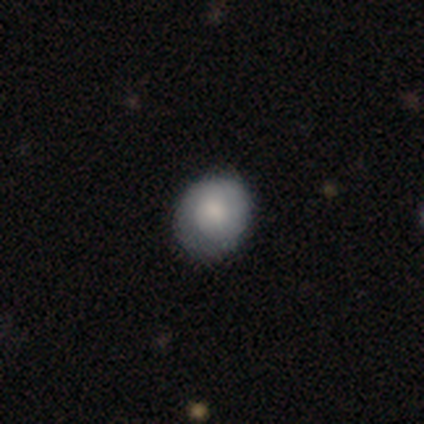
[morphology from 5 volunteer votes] smooth_or_featured: smooth (p=0.60) [alt: featured or disk p=0.20]
how_rounded: round (p=1.00)
merging: none (p=0.75) [alt: minor disturbance p=0.25]